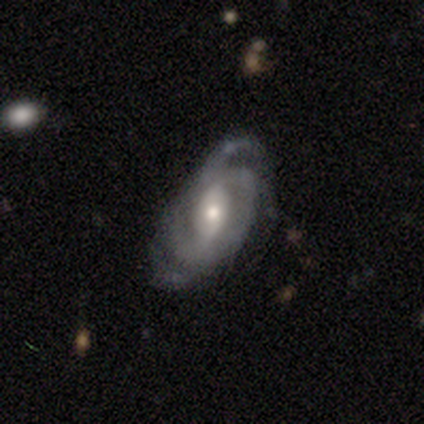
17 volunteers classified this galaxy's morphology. Smooth or featured? featured or disk (88%)
Edge-on disk? no (100%)
Bar? weak (60%)
Spiral arms? yes (100%)
Spiral winding? medium (53%)
Spiral arm count? 2 (53%)
Bulge size? moderate (60%)
Merging? none (53%)